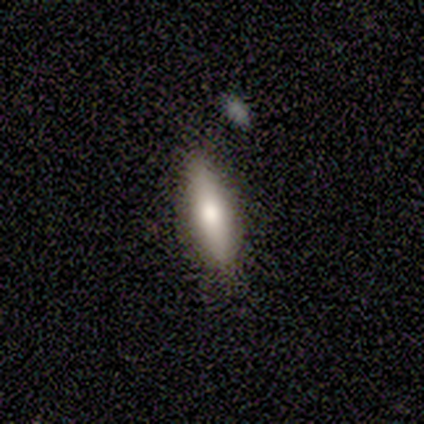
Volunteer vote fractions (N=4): Morphology: type=smooth (75%); roundness=in between (67%); merging=none (75%).